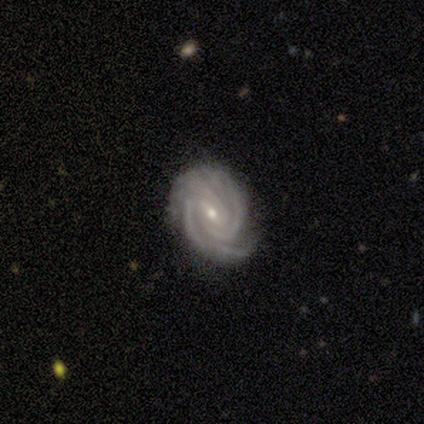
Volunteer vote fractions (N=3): featured or disk 100%, smooth 0%, star or artifact 0%. Down the decision tree: edge-on disk — no (67%); bar — weak (50%, tied with no); spiral arms — yes (100%); spiral arm count — 2 (50%, tied with can't tell); spiral winding — tight (100%); bulge size — small (100%); merging — none (33%, tied with minor disturbance and major disturbance).